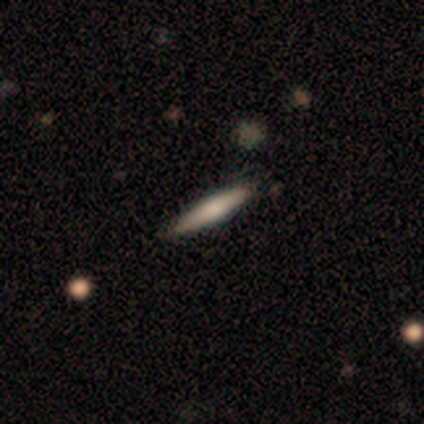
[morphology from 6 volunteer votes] smooth-or-featured: smooth: 67% | featured or disk: 33% | star or artifact: 0%
  how-rounded: cigar-shaped: 100% | round: 0% | in between: 0%
  merging: none: 67% | minor disturbance: 33% | major disturbance: 0% | merger: 0%